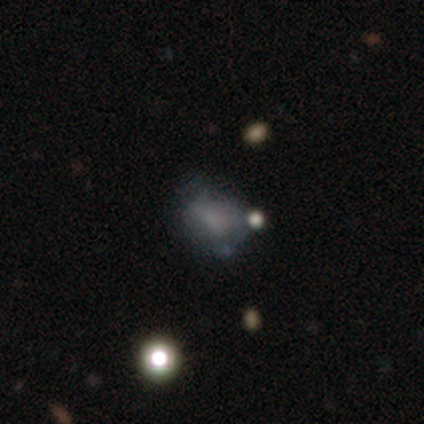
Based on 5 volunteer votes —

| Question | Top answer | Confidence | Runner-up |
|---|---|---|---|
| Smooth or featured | smooth | 60% | featured or disk (20%) |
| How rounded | in between | 67% | round (33%) |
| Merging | minor disturbance | 50% | none (25%) |